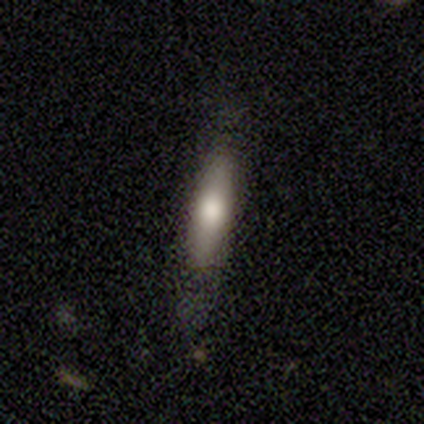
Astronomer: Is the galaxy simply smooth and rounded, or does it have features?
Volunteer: smooth — 51% (runner-up: featured or disk, 33%).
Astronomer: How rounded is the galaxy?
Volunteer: cigar-shaped — 85%.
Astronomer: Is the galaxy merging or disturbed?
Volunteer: none — 79%.